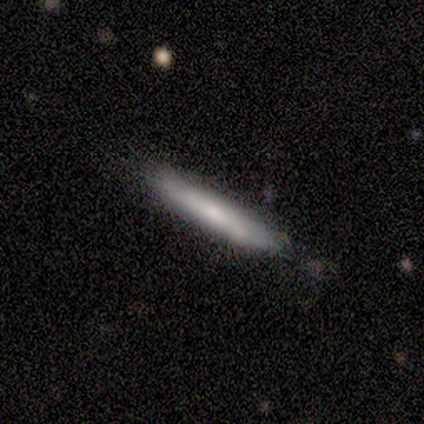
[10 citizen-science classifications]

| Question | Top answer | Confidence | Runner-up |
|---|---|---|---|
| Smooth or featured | smooth | 50% | tied: featured or disk (50%) |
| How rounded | cigar-shaped | 100% | — |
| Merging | none | 80% | minor disturbance (20%) |